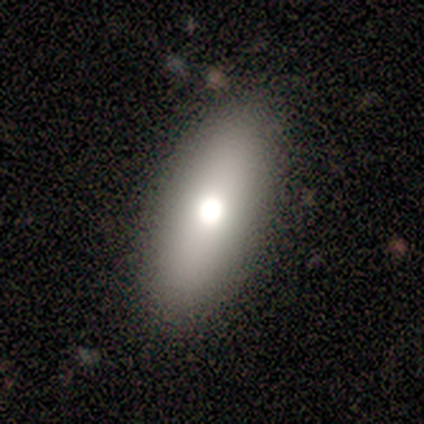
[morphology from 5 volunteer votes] This is likely a smooth galaxy (60%). How rounded: clearly in between (100%). Merging: clearly none (100%).